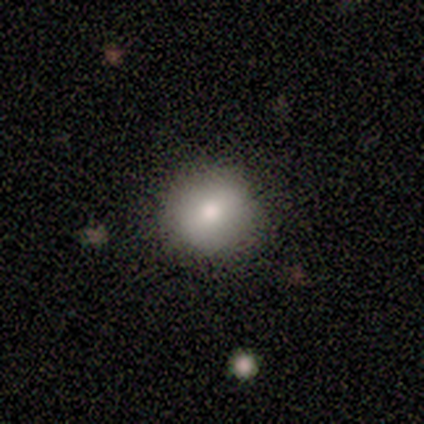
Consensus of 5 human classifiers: smooth_or_featured: smooth (p=1.00)
how_rounded: round (p=0.80) [alt: in between p=0.20]
merging: none (p=1.00)